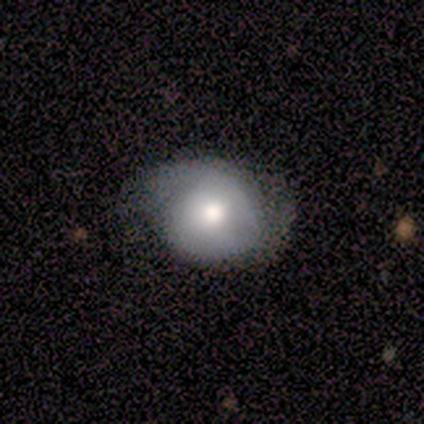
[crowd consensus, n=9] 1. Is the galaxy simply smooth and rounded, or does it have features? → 56% smooth, 44% featured or disk, 0% star or artifact.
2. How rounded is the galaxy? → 60% in between, 40% round, 0% cigar-shaped.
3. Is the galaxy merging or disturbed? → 67% none, 22% minor disturbance, 11% major disturbance, 0% merger.